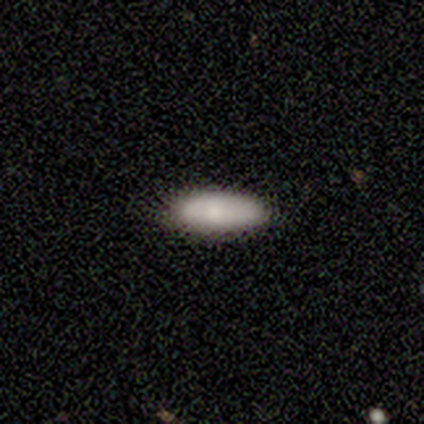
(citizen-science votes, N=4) Smooth or featured? 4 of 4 (100%) said smooth. How rounded? 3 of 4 (75%) said in between. Merging? 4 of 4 (100%) said none.